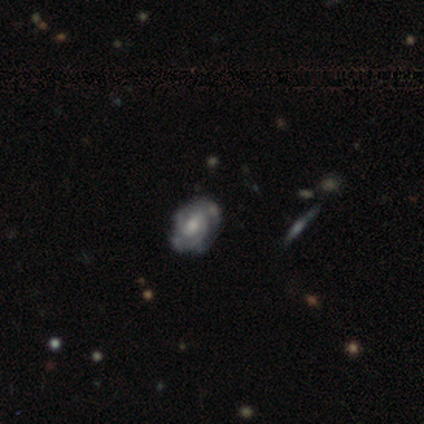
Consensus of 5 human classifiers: This is clearly a featured or disk galaxy (80%). It is clearly not viewed edge-on (100%). Bar: possibly weak (50%, tied with no). Spiral arm pattern: clearly yes (100%). Spiral arm count: likely 2 (75%). Spiral winding: possibly tight (50%, tied with medium). Central bulge: likely moderate (75%). Merging: likely none (75%).